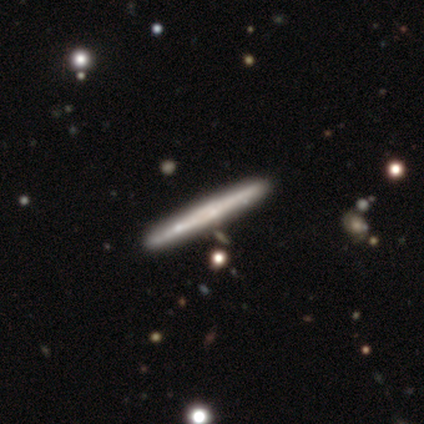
This appears to be a featured or disk galaxy (64%) viewed edge-on (94%) with no central bulge (65%). Merging: none (43%).